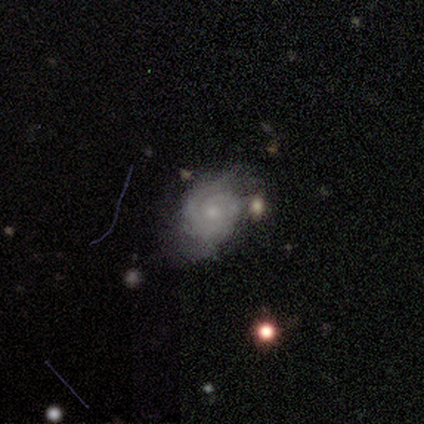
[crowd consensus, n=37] Overall: featured or disk (73%). Edge-on disk: no (100%). Bar: no (78%). Spiral arms: yes (96%). Spiral arm count: 2 (38%; can't tell 35%). Spiral winding: tight (77%). Bulge size: small (56%; moderate 30%). Merging: none (61%; minor disturbance 35%).